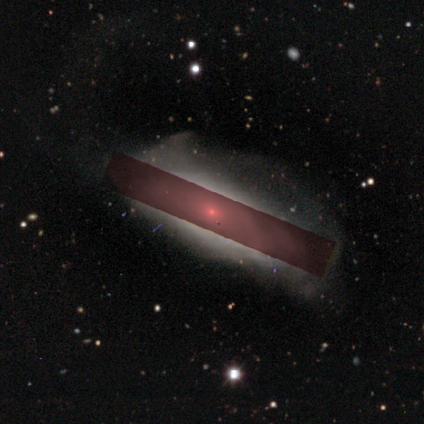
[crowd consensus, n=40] A featured or disk galaxy (50%) with no bar (88%), tight (69%) spiral arms (76%) and a moderate central bulge (53%). Merging: none (48%).